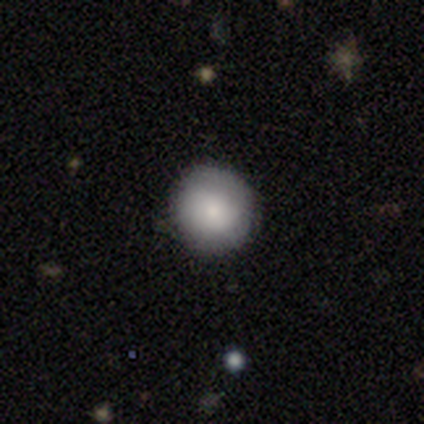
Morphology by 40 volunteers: Smooth or featured? smooth (85%)
How rounded? round (97%)
Merging? none (79%)